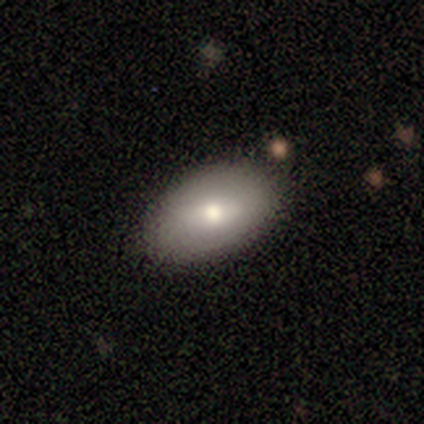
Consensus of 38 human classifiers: Smooth or featured?
  - smooth: 66% *
  - featured or disk: 32%
  - star or artifact: 3%
How rounded?
  - in between: 92% *
  - round: 4%
  - cigar-shaped: 4%
Merging?
  - none: 78% *
  - minor disturbance: 16%
  - merger: 5%
  - major disturbance: 0%